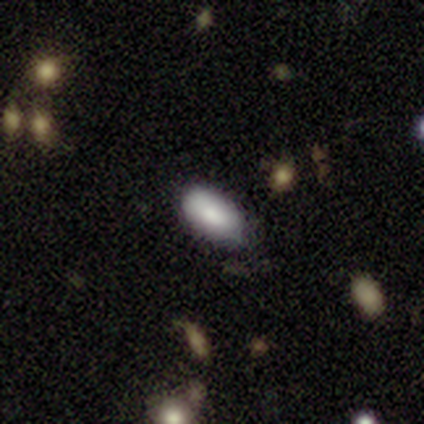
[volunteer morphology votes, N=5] smooth-or-featured: smooth: 100% | featured or disk: 0% | star or artifact: 0%
  how-rounded: in between: 100% | round: 0% | cigar-shaped: 0%
  merging: none: 80% | minor disturbance: 20% | major disturbance: 0% | merger: 0%